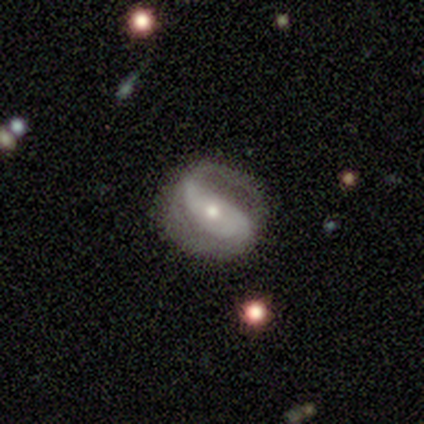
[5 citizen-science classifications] A smooth galaxy with no disk features (60%) that is in between round and cigar-shaped (100%).

Vote fractions:
- Smooth or featured? smooth: 60% / featured or disk: 40% / star or artifact: 0%
- How rounded? in between: 100% / round: 0% / cigar-shaped: 0%
- Merging? none: 60% / major disturbance: 40% / minor disturbance: 0% / merger: 0%